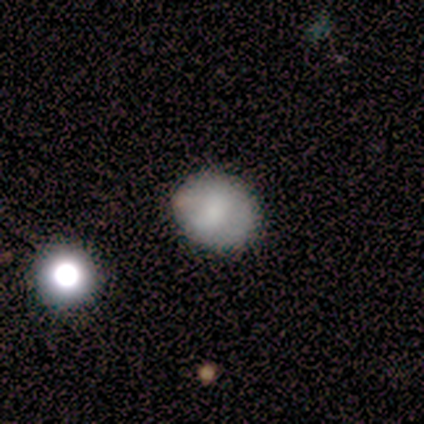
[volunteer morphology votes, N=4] Smooth or featured? smooth (75%)
How rounded? in between (67%)
Merging? none (67%)